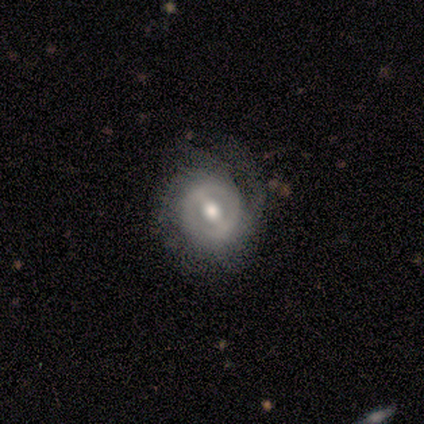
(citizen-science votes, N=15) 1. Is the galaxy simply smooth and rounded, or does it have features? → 67% featured or disk, 33% smooth, 0% star or artifact.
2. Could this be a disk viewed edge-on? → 100% no, 0% yes.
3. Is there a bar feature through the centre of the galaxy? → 70% strong, 30% weak, 0% no.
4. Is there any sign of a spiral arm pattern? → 60% yes, 40% no.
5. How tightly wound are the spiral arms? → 50% tight, 33% medium, 17% loose.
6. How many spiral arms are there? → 67% can't tell, 33% 3, 0% 1, 0% 2, 0% 4, 0% more than 4.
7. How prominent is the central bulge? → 80% moderate, 10% large, 10% small, 0% dominant, 0% none.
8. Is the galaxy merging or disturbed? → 67% none, 27% minor disturbance, 7% major disturbance, 0% merger.